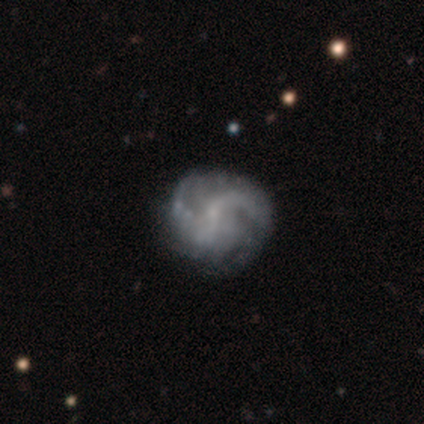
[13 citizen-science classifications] This appears to be a featured or disk galaxy (85%) with no bar (82%), 2 (45%, tied with can't tell) medium (55%) spiral arms (100%) and a small central bulge (55%). Merging: none (58%).